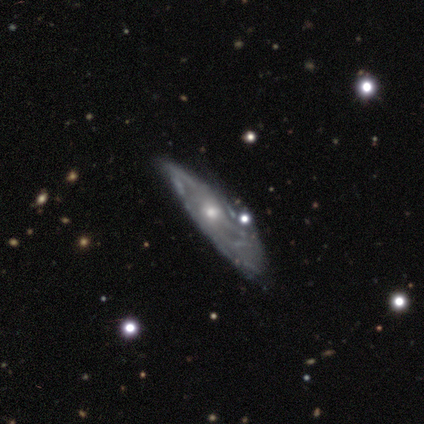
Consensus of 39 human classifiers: smooth-or-featured: featured or disk: 90% | smooth: 10% | star or artifact: 0%
  disk-edge-on: no: 77% | yes: 23%
    bar: no: 81% | weak: 19% | strong: 0%
    has-spiral-arms: yes: 67% | no: 33%
      spiral-winding: tight: 50% | medium: 39% | loose: 11%
      spiral-arm-count: can't tell: 72% | 1: 6% | 2: 6% | 3: 6% | 4: 6% | more than 4: 6%
    bulge-size: moderate: 44% (tied) | small: 44% (tied) | dominant: 7% | large: 4% | none: 0%
  merging: none: 38% | minor disturbance: 28% | major disturbance: 26% | merger: 8%